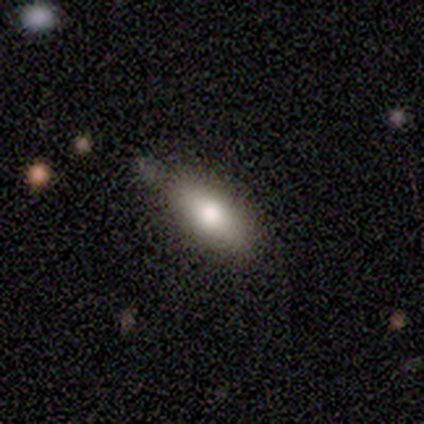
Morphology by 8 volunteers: A smooth galaxy with no disk features (88%) that is in between round and cigar-shaped (86%).

Vote fractions:
- Smooth or featured? smooth: 88% / featured or disk: 12% / star or artifact: 0%
- How rounded? in between: 86% / cigar-shaped: 14% / round: 0%
- Merging? none: 50% (tied) / minor disturbance: 50% (tied) / major disturbance: 0% / merger: 0%